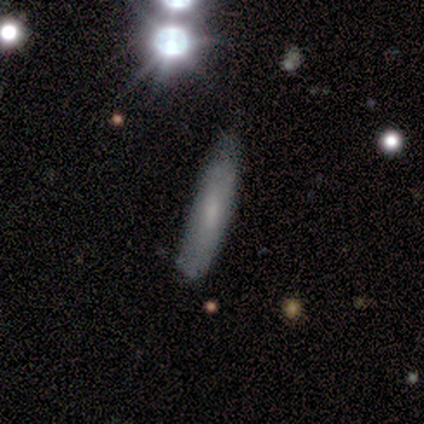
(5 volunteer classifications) Overall: smooth (60%; featured or disk 40%). How rounded: cigar-shaped (67%; in between 33%). Merging: minor disturbance (60%; none 40%).